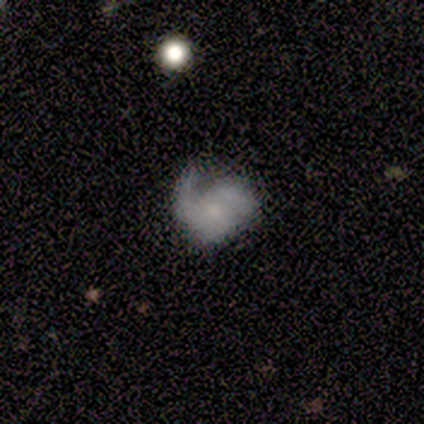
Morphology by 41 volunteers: Volunteers were most divided on "spiral winding": tight: 40%, medium: 35%, loose: 25%. Remaining: edge-on disk — no (97%); bar — no (89%); spiral arms — yes (71%); bulge size — small (71%); smooth or featured — featured or disk (71%); spiral arm count — 1 (45%); merging — minor disturbance (41%).